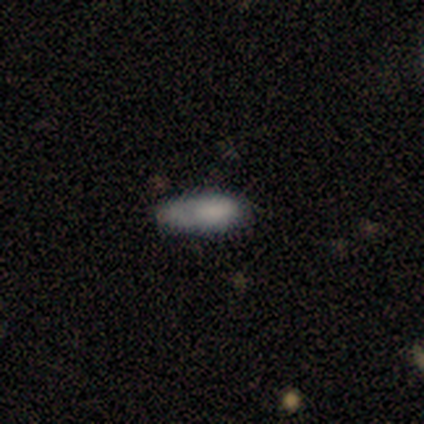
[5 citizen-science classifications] A smooth galaxy with no disk features (80%) that is in between round and cigar-shaped (50%, tied with cigar-shaped).

Vote fractions:
- Smooth or featured? smooth: 80% / star or artifact: 20% / featured or disk: 0%
- How rounded? in between: 50% (tied) / cigar-shaped: 50% (tied) / round: 0%
- Merging? none: 75% / minor disturbance: 25% / major disturbance: 0% / merger: 0%